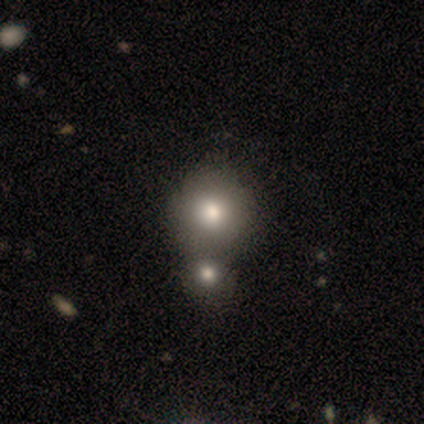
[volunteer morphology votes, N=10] Smooth or featured? 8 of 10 (80%) said smooth. How rounded? 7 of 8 (88%) said round. Merging? 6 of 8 (75%) said merger.